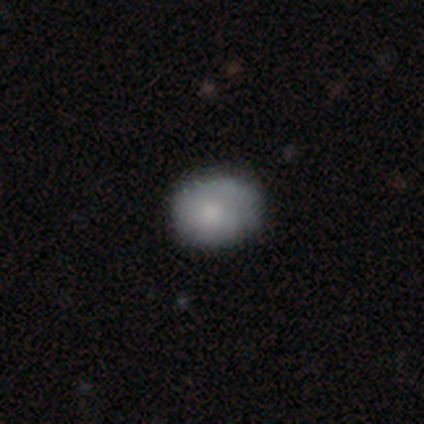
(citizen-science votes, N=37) This is likely a smooth galaxy (70%). How rounded: likely round (62%). Merging: clearly none (88%).